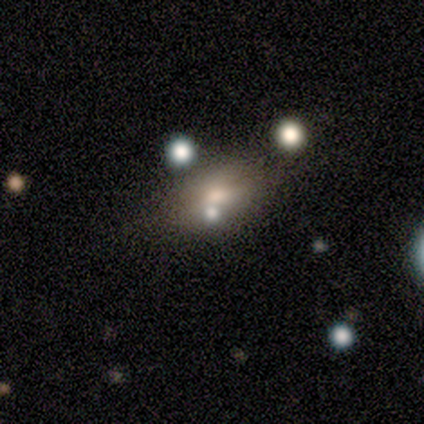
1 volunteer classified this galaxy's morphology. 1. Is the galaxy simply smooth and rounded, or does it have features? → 100% smooth, 0% featured or disk, 0% star or artifact.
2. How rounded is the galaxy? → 100% in between, 0% round, 0% cigar-shaped.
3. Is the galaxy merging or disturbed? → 100% minor disturbance, 0% none, 0% major disturbance, 0% merger.